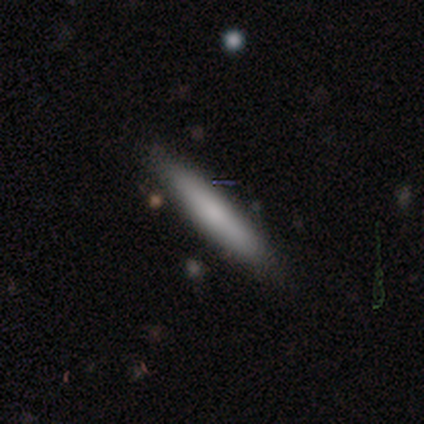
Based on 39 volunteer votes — Overall: smooth (79%). How rounded: cigar-shaped (94%). Merging: none (79%).